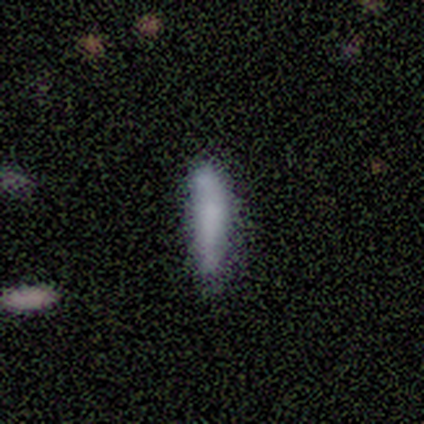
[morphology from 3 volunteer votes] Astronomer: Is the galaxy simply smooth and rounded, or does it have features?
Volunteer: smooth — 67%.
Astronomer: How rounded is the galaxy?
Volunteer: cigar-shaped — 100%.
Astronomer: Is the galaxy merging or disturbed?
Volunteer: none — 100%.